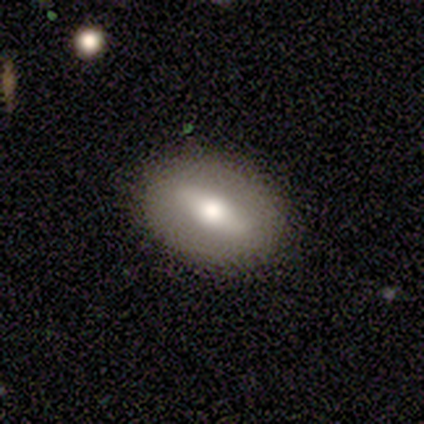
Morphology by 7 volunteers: A featured or disk galaxy (57%) with a strong bar (67%), no spiral arms (100%) and a moderate central bulge (100%). Merging: none (86%).